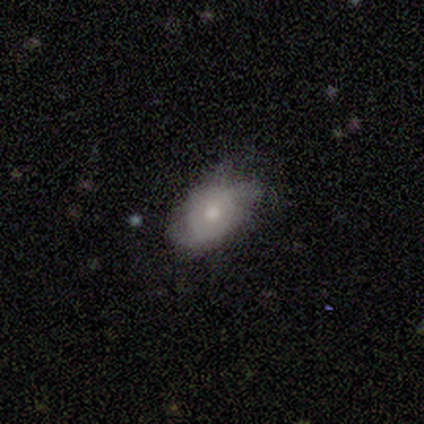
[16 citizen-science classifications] Overall: smooth (50%; featured or disk 44%). How rounded: in between (75%). Merging: none (53%; minor disturbance 47%).